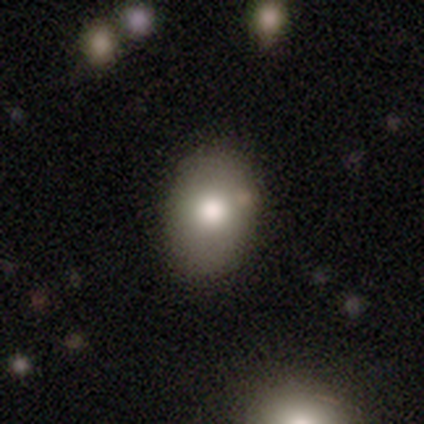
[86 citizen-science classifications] Smooth or featured? 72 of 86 (84%) said smooth. How rounded? 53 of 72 (74%) said in between. Merging? 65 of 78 (83%) said none.